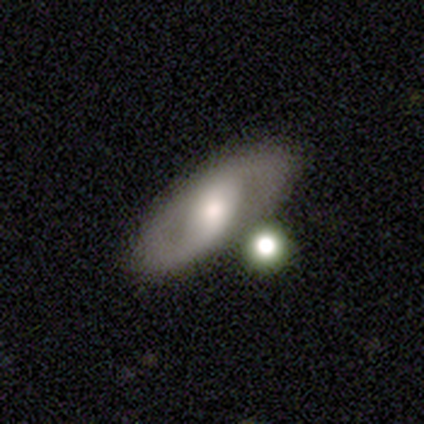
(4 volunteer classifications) smooth-or-featured: smooth: 50% (tied) | featured or disk: 50% (tied) | star or artifact: 0%
  how-rounded: in between: 100% | round: 0% | cigar-shaped: 0%
  merging: none: 50% | minor disturbance: 25% | merger: 25% | major disturbance: 0%